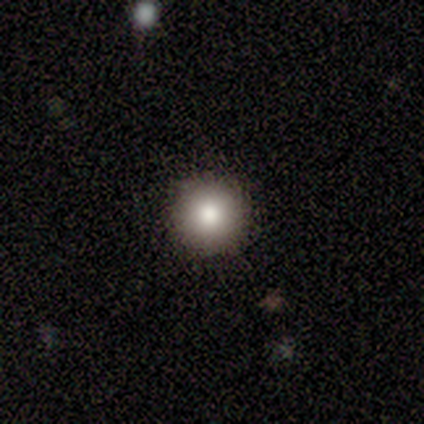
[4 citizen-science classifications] smooth 100%, featured or disk 0%, star or artifact 0%. Down the decision tree: how rounded — round (100%); merging — none (100%).